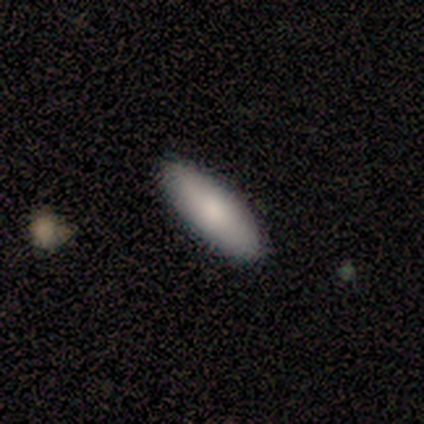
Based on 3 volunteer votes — Smooth or featured?
  - smooth: 67% *
  - featured or disk: 33%
  - star or artifact: 0%
How rounded?
  - cigar-shaped: 100% *
  - round: 0%
  - in between: 0%
Merging?
  - none: 67% *
  - minor disturbance: 33%
  - major disturbance: 0%
  - merger: 0%